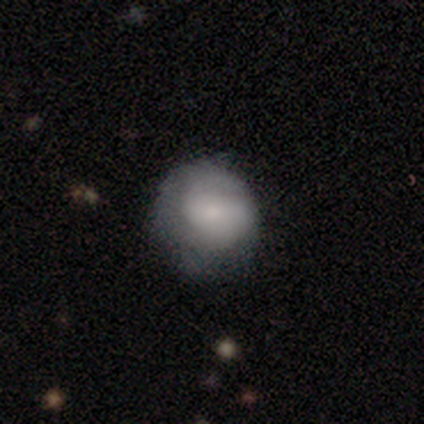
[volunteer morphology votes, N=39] This appears to be a smooth galaxy with no disk features (62%) that is round (88%). Merging: none (54%).